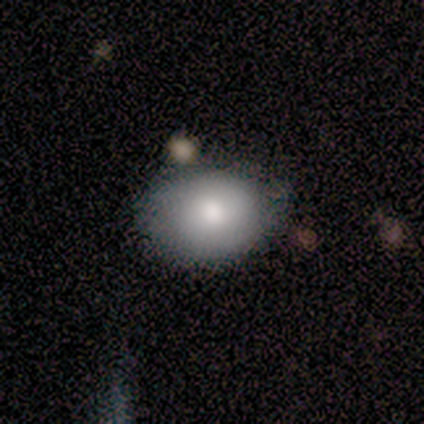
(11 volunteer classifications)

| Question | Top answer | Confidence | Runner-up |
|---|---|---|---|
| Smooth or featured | smooth | 73% | featured or disk (27%) |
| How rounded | in between | 62% | round (38%) |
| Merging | none | 45% | tied: minor disturbance (45%) |